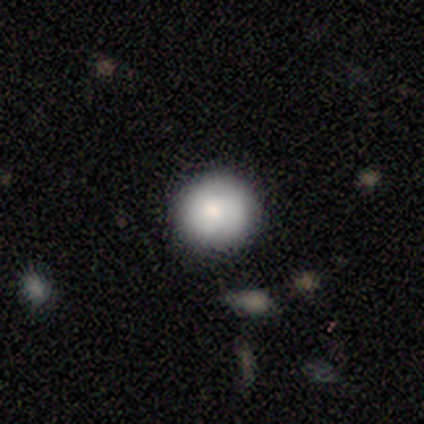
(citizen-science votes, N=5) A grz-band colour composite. It shows a smooth galaxy with no disk features (100%) that is round (100%). Merging: none (100%).